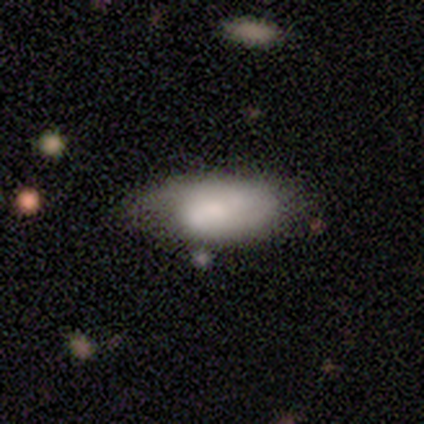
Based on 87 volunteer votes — Smooth or featured: smooth — 71% (featured or disk — 21%)
How rounded: in between — 94% (cigar-shaped — 6%)
Merging: minor disturbance — 48% (none — 40%)